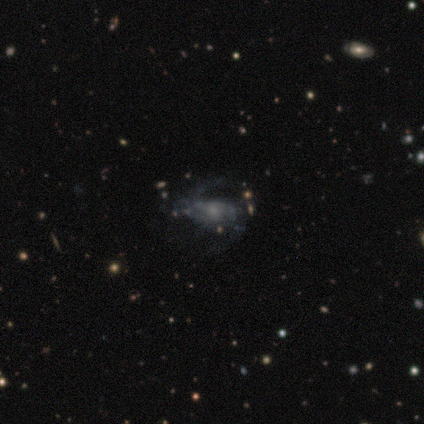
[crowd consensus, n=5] Smooth or featured? featured or disk (80%)
Edge-on disk? no (100%)
Bar? no (75%)
Spiral arms? yes (100%)
Spiral winding? medium (50%)
Spiral arm count? can't tell (50%)
Bulge size? moderate (50%, tied with small)
Merging? none (100%)